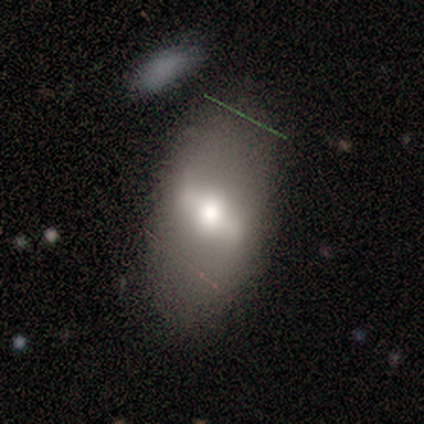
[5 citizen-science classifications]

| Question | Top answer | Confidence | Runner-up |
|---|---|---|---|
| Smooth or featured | smooth | 60% | featured or disk (40%) |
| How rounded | in between | 100% | — |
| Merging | none | 100% | — |